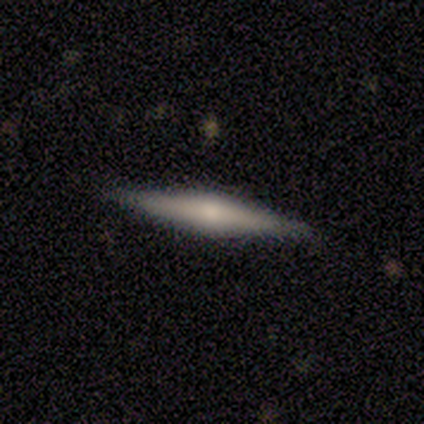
This is clearly a smooth galaxy (80%). How rounded: likely cigar-shaped (75%). Merging: clearly none (100%).